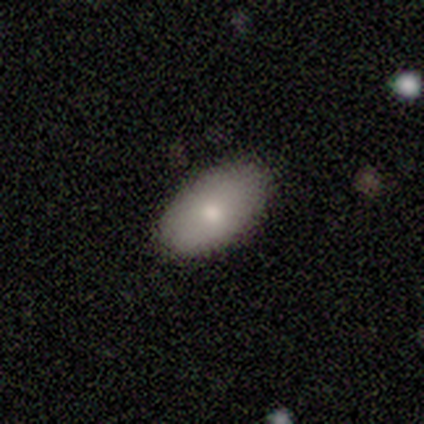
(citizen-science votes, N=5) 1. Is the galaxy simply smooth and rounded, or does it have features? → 100% smooth, 0% featured or disk, 0% star or artifact.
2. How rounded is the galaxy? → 100% in between, 0% round, 0% cigar-shaped.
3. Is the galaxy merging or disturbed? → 80% none, 20% minor disturbance, 0% major disturbance, 0% merger.